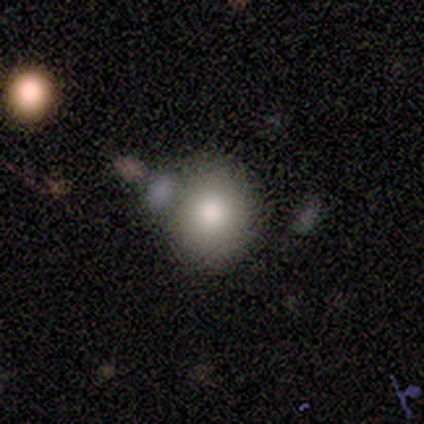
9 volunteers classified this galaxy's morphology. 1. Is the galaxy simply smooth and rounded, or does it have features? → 67% smooth, 33% featured or disk, 0% star or artifact.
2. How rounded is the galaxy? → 83% round, 17% in between, 0% cigar-shaped.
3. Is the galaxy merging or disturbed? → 89% none, 11% merger, 0% minor disturbance, 0% major disturbance.